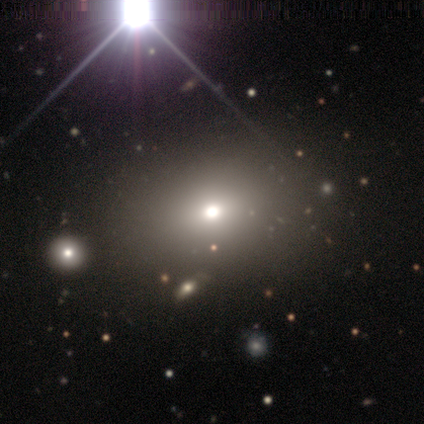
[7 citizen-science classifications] Smooth or featured?
  - smooth: 43% * (tied)
  - star or artifact: 43% * (tied)
  - featured or disk: 14%
How rounded?
  - in between: 100% *
  - round: 0%
  - cigar-shaped: 0%
Merging?
  - none: 100% *
  - minor disturbance: 0%
  - major disturbance: 0%
  - merger: 0%